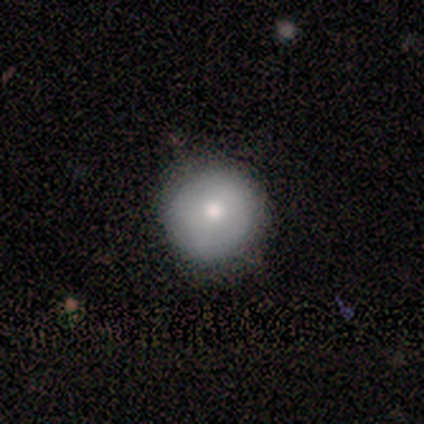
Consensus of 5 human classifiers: Smooth or featured? 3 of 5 (60%) said smooth. How rounded? 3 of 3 (100%) said round. Merging? 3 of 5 (60%) said none.